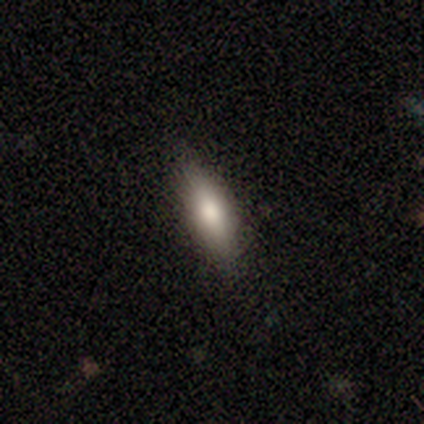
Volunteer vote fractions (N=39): Volunteers were most divided on "merging": none: 68%, minor disturbance: 30%, major disturbance: 3%, merger: 0%. More confident: smooth or featured — smooth (77%); how rounded — in between (70%).